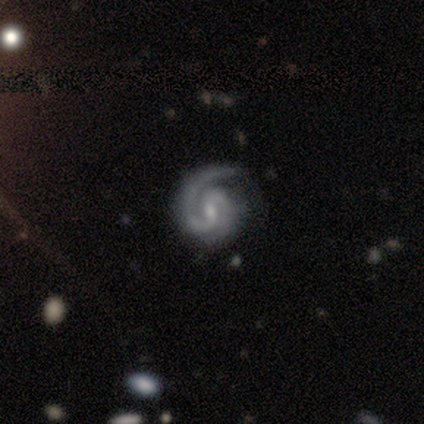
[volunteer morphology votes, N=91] featured or disk 96%, star or artifact 3%, smooth 1%. Down the decision tree: edge-on disk — no (99%); bar — weak (59%); spiral arms — yes (100%); spiral arm count — 2 (79%); spiral winding — tight (70%); bulge size — small (71%); merging — none (72%).